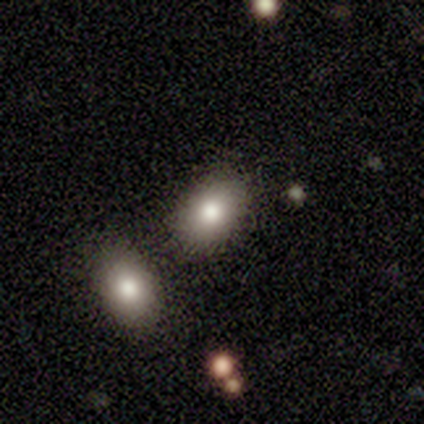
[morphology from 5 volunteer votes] smooth 100%, featured or disk 0%, star or artifact 0%. Down the decision tree: how rounded — in between (100%); merging — none (60%).